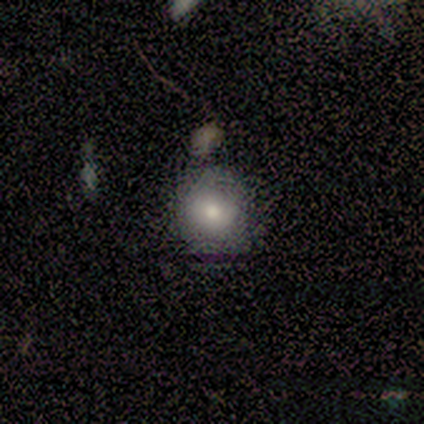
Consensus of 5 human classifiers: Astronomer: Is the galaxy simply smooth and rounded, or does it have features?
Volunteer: smooth — 100%.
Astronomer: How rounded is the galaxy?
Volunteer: round — 80%.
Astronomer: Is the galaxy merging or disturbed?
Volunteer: none — 100%.